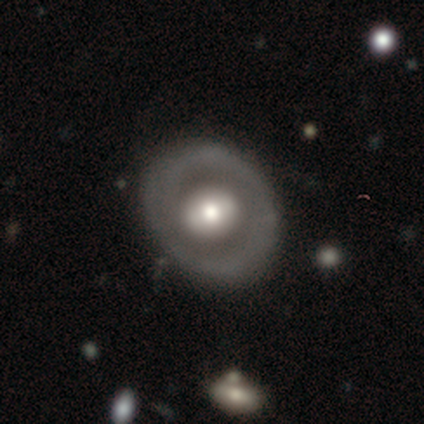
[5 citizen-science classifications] Volunteers were most divided on "merging": none: 60%, minor disturbance: 40%, major disturbance: 0%, merger: 0%. More confident: edge-on disk — no (100%); spiral winding — tight (100%); bulge size — moderate (100%); smooth or featured — featured or disk (80%); bar — weak (75%); spiral arms — yes (75%); spiral arm count — 2 (67%).